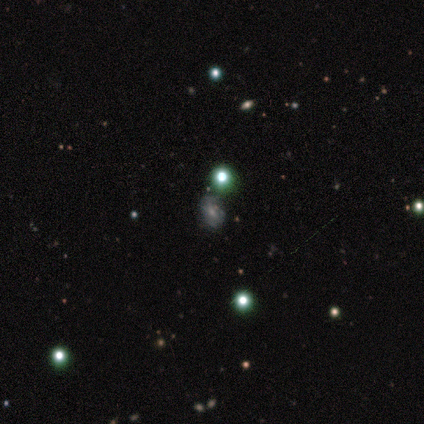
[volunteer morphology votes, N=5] smooth 80%, star or artifact 20%, featured or disk 0%. Down the decision tree: how rounded — round (50%, tied with in between); merging — none (75%).